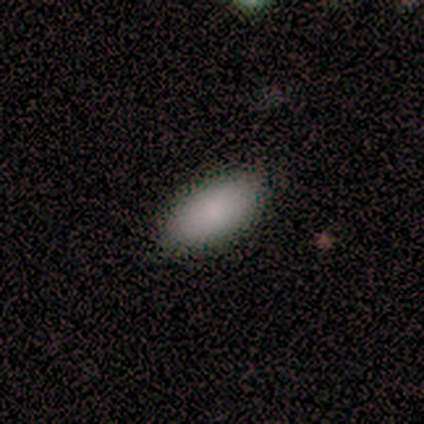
Q: Smooth or featured?
A: smooth (100%)
Q: How rounded?
A: in between (100%)
Q: Merging?
A: none (100%)